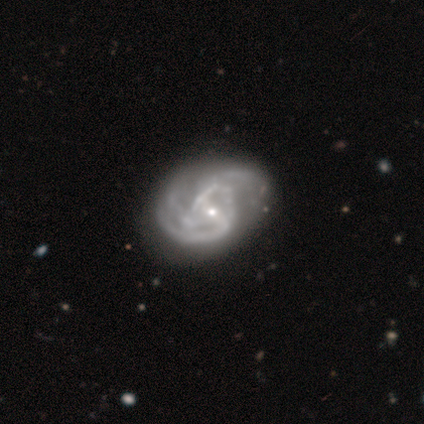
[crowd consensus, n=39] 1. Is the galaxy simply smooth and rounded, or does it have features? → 95% featured or disk, 5% smooth, 0% star or artifact.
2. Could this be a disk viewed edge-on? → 100% no, 0% yes.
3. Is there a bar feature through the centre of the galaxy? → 65% weak, 22% no, 14% strong.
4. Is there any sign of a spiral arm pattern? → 97% yes, 3% no.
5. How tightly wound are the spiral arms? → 58% medium, 28% loose, 14% tight.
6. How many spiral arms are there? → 31% 2, 28% can't tell, 22% 3, 11% 4, 6% 1, 3% more than 4.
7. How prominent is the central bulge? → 73% small, 24% moderate, 3% none, 0% dominant, 0% large.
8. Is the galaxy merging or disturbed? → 41% none, 18% major disturbance, 8% minor disturbance, 5% merger.